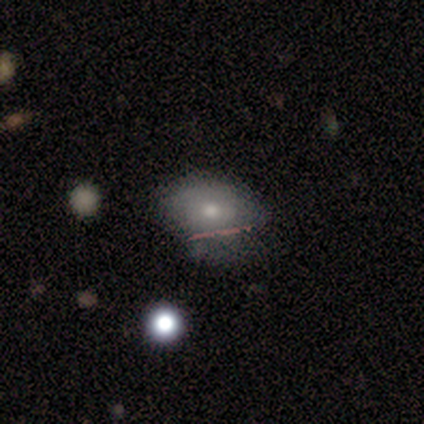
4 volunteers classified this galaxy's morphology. This is clearly a smooth galaxy (100%). How rounded: likely in between (75%). Merging: clearly minor disturbance (100%).